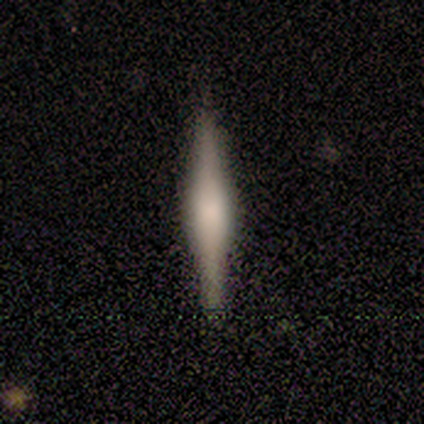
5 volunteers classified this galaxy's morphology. Overall: smooth (60%; featured or disk 40%). How rounded: cigar-shaped (100%). Merging: none (80%).